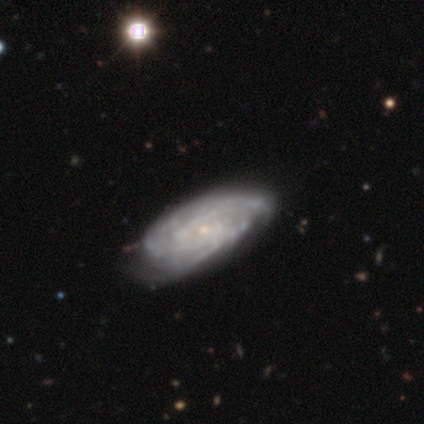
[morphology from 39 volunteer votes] Volunteers were most divided on "merging": none: 44%, minor disturbance: 10%, merger: 5%, major disturbance: 3%. More confident: smooth or featured — featured or disk (97%); edge-on disk — no (97%); spiral arms — yes (97%); bulge size — small (78%); spiral winding — tight (75%); bar — no (70%); spiral arm count — can't tell (53%).